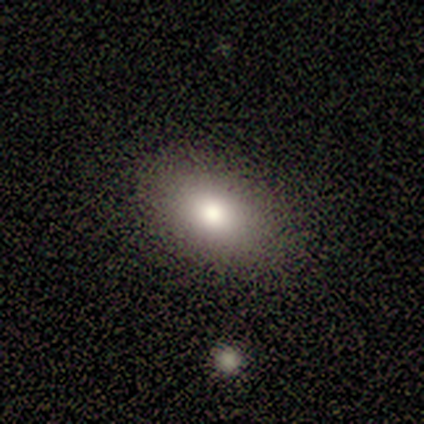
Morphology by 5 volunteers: A smooth galaxy with no disk features (60%) that is in between round and cigar-shaped (100%). Merging: none (100%).